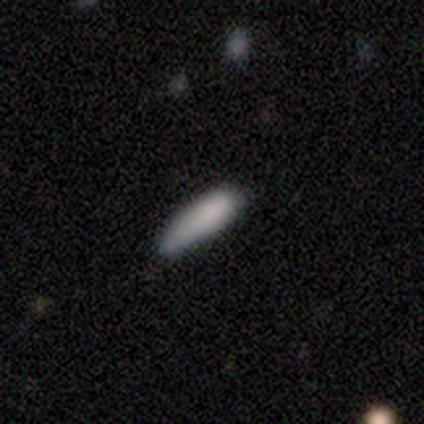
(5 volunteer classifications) Smooth or featured? smooth (100%)
How rounded? cigar-shaped (80%)
Merging? none (80%)